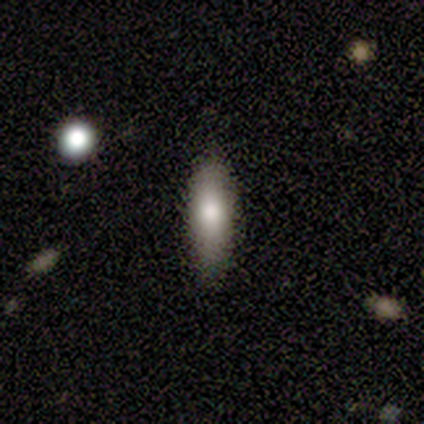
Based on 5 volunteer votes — Smooth or featured?
  - smooth: 100% *
  - featured or disk: 0%
  - star or artifact: 0%
How rounded?
  - in between: 60% *
  - cigar-shaped: 40%
  - round: 0%
Merging?
  - none: 80% *
  - minor disturbance: 20%
  - major disturbance: 0%
  - merger: 0%